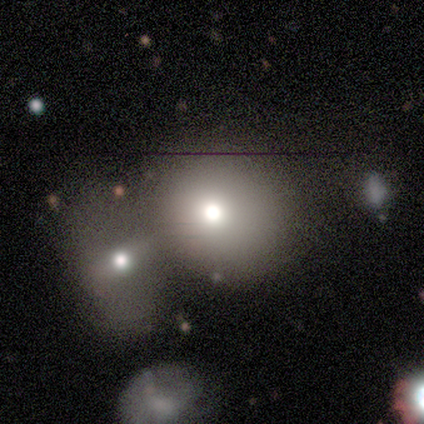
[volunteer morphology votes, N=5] Smooth or featured? smooth (40%, tied with star or artifact)
How rounded? round (50%, tied with in between)
Merging? merger (100%)